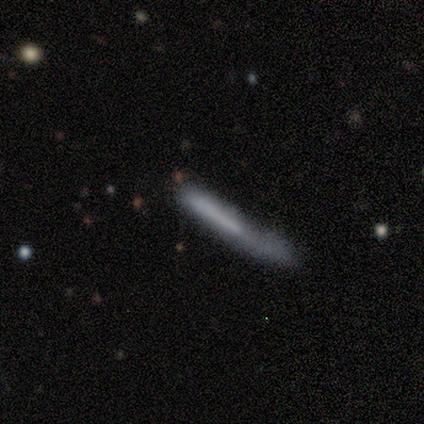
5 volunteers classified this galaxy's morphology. smooth_or_featured: smooth (p=0.80) [alt: featured or disk p=0.20]
how_rounded: cigar-shaped (p=1.00)
merging: major disturbance (p=0.60) [alt: none p=0.20]